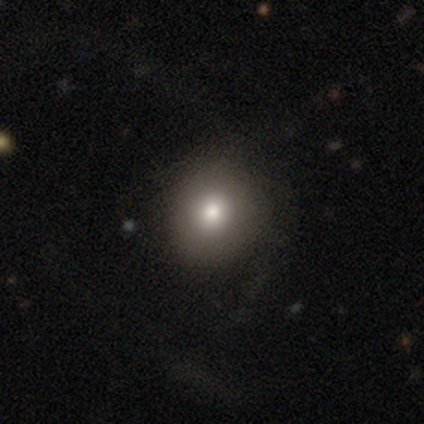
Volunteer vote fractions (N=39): Q: Smooth or featured?
A: smooth (82%); runner-up: featured or disk (10%)
Q: How rounded?
A: round (88%); runner-up: in between (12%)
Q: Merging?
A: none (53%); runner-up: minor disturbance (14%)